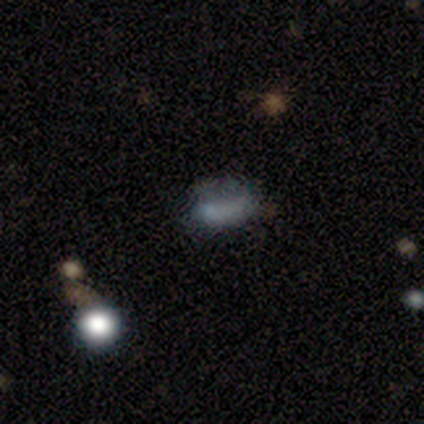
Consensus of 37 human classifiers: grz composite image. It shows a smooth galaxy with no disk features (49%) that is in between round and cigar-shaped (78%). Merging: none (36%).